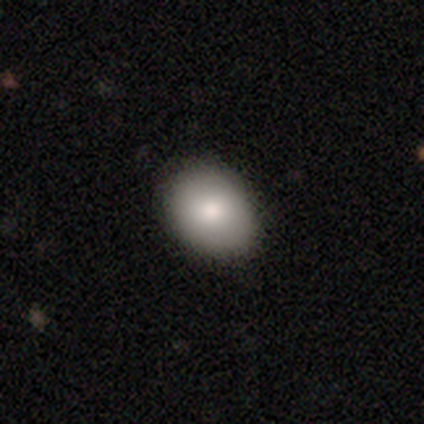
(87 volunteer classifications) This appears to be a smooth galaxy with no disk features (84%) that is in between round and cigar-shaped (70%). Merging: none (77%).